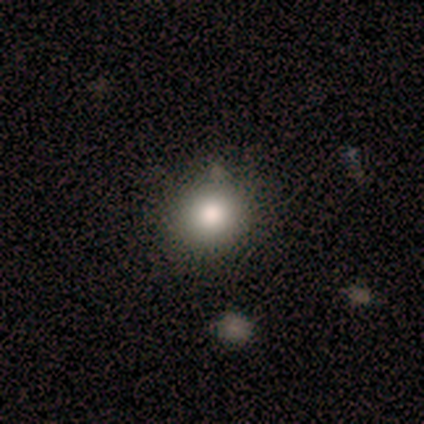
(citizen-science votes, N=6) Volunteers were most divided on "how rounded": round: 80%, in between: 20%, cigar-shaped: 0%. More confident: merging — none (100%); smooth or featured — smooth (83%).